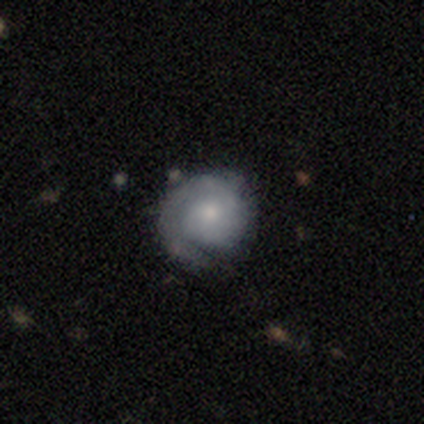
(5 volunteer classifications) This appears to be a featured or disk galaxy (80%) with no bar (75%), 1 (50%, tied with can't tell) tight (100%) spiral arms (100%) and a small central bulge (75%). Merging: none (80%).